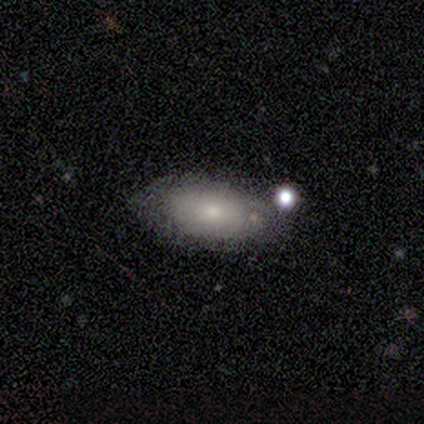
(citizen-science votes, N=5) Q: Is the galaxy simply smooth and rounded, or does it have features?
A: featured or disk — 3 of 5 (60%).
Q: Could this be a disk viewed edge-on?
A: no — 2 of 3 (67%).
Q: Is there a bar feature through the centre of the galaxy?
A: no — 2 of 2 (100%).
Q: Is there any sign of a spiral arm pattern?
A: no — 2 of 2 (100%).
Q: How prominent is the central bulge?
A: small — 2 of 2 (100%).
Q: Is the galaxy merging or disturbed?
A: none — 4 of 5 (80%).